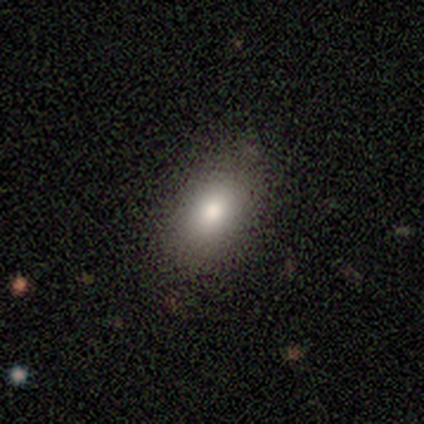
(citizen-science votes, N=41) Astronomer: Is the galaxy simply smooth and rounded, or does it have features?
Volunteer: smooth — 85%.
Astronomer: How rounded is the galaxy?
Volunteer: in between — 91%.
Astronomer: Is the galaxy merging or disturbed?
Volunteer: none — 85%.